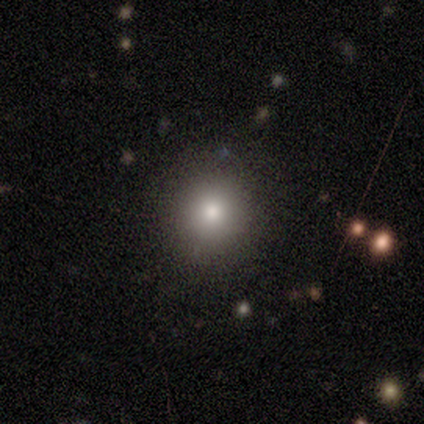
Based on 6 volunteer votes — Smooth or featured? smooth (100%)
How rounded? round (83%)
Merging? none (100%)